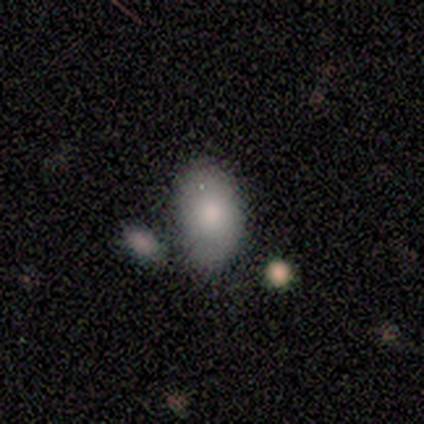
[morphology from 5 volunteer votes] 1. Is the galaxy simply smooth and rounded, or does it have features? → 80% smooth, 20% featured or disk, 0% star or artifact.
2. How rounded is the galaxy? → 100% in between, 0% round, 0% cigar-shaped.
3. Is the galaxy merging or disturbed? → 80% none, 20% minor disturbance, 0% major disturbance, 0% merger.